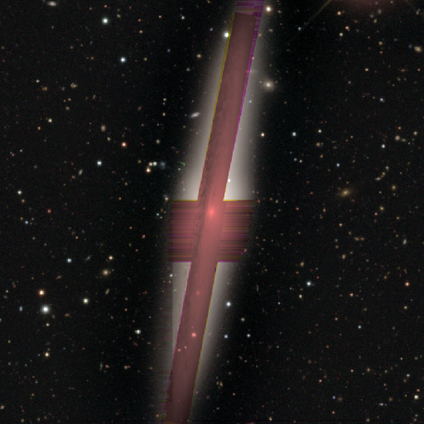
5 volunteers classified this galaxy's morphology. A featured or disk galaxy (60%) viewed edge-on (100%) with a boxy central bulge (100%). Merging: none (100%).